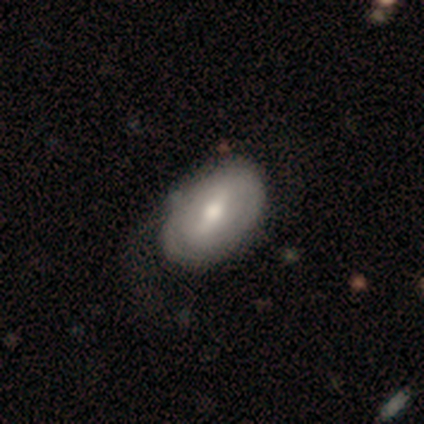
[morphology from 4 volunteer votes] Volunteers were most divided on "bar" (3-way tie): strong: 33%, weak: 33%, no: 33%; "spiral winding" (2-way tie): tight: 50%, medium: 50%, loose: 0%. More confident: edge-on disk — no (100%); spiral arm count — 2 (100%); smooth or featured — featured or disk (75%); merging — none (75%); spiral arms — yes (67%); bulge size — moderate (67%).